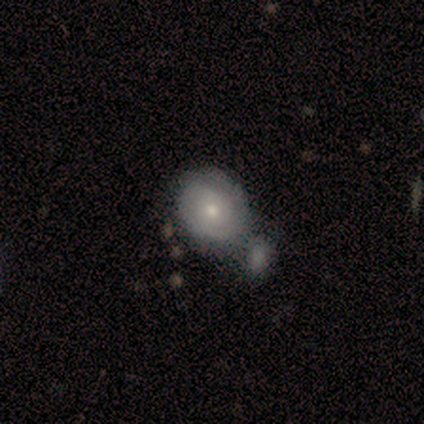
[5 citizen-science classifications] A featured or disk galaxy (80%) with no bar (100%), tight (100%) spiral arms (50%, tied with no) and a moderate central bulge (75%).

Vote fractions:
- Smooth or featured? featured or disk: 80% / star or artifact: 20% / smooth: 0%
- Edge-on disk? no: 100% / yes: 0%
- Bar? no: 100% / strong: 0% / weak: 0%
- Spiral arms? yes: 50% (tied) / no: 50% (tied)
- Spiral winding? tight: 100% / medium: 0% / loose: 0%
- Spiral arm count? can't tell: 100% / 1: 0% / 2: 0% / 3: 0% / 4: 0% / more than 4: 0%
- Bulge size? moderate: 75% / small: 25% / dominant: 0% / large: 0% / none: 0%
- Merging? merger: 75% / minor disturbance: 25% / none: 0% / major disturbance: 0%